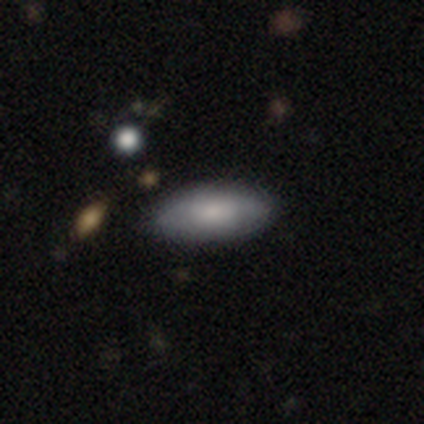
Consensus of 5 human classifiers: smooth 100%, featured or disk 0%, star or artifact 0%. Down the decision tree: how rounded — in between (100%); merging — none (80%).